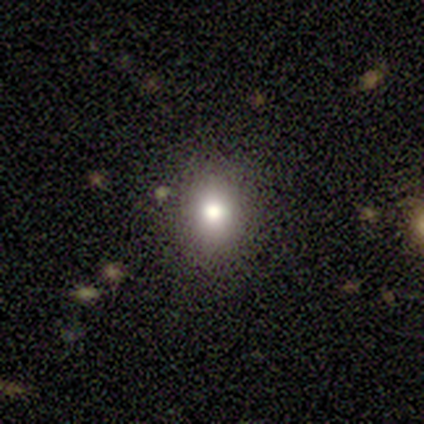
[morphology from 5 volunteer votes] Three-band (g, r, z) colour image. It shows a star or artifact, not a galaxy (60%).